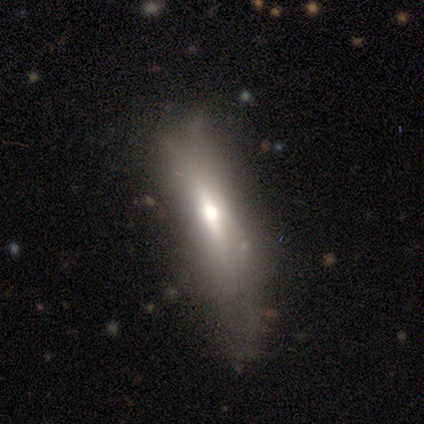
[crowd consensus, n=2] This appears to be a featured or disk galaxy (100%) viewed edge-on (100%) with a rounded central bulge (100%). Merging: none (50%, tied with minor disturbance).